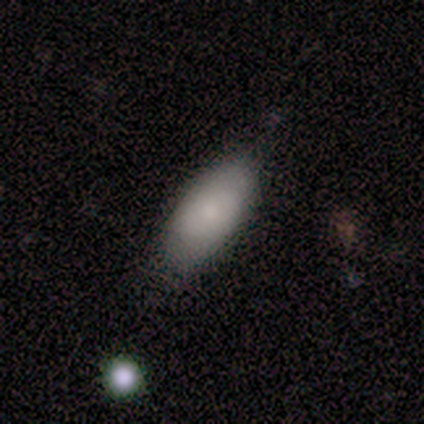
This is clearly a smooth galaxy (100%). How rounded: clearly in between (100%). Merging: likely none (75%).